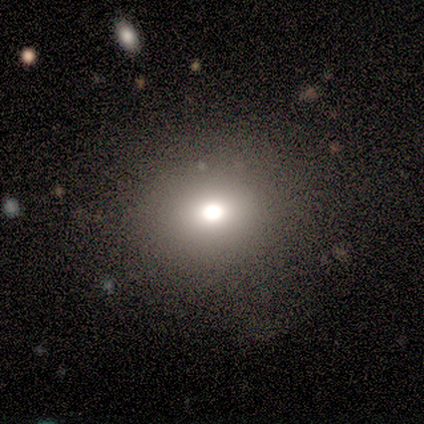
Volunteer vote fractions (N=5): A smooth galaxy with no disk features (60%) that is in between round and cigar-shaped (67%).

Vote fractions:
- Smooth or featured? smooth: 60% / star or artifact: 40% / featured or disk: 0%
- How rounded? in between: 67% / round: 33% / cigar-shaped: 0%
- Merging? none: 100% / minor disturbance: 0% / major disturbance: 0% / merger: 0%